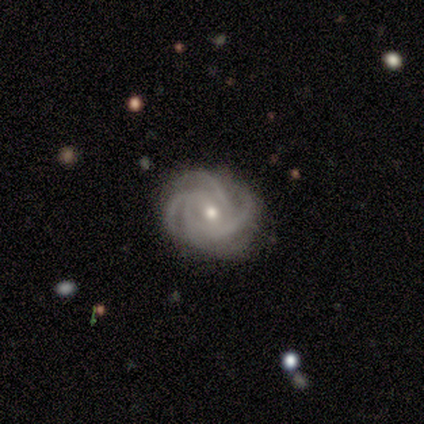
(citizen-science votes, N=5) Smooth or featured: featured or disk — 100%
Edge-on disk: no — 100%
Bar: no — 100%
Spiral arms: yes — 100%
Spiral winding: tight — 100%
Spiral arm count: 4 — 60% (3 — 40%)
Bulge size: small — 60% (moderate — 40%)
Merging: none — 100%